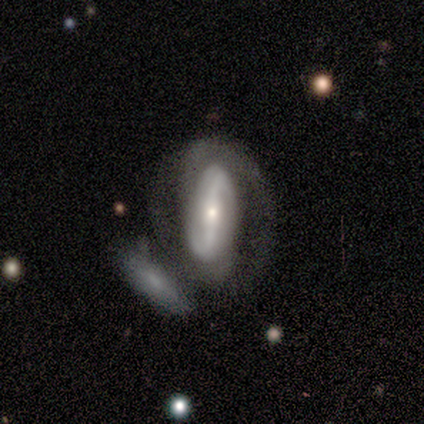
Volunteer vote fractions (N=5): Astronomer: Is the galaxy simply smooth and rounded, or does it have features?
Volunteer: featured or disk — 100%.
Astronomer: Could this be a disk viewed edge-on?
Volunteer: no — 100%.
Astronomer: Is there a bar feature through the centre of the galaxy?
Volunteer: strong — 60%.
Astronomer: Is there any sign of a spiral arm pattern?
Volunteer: yes — 60% (runner-up: no, 40%).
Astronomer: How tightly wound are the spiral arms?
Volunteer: tight — 67%.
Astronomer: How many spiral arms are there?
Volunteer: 2 — 100%.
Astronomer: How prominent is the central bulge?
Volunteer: small — 80%.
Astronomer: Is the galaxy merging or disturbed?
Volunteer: none — 60% (runner-up: merger, 40%).